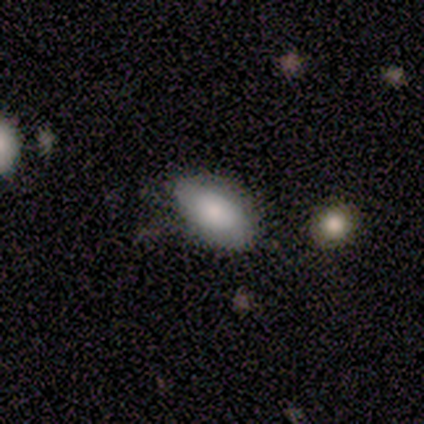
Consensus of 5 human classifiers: smooth 100%, featured or disk 0%, star or artifact 0%. Down the decision tree: how rounded — in between (60%); merging — none (60%).